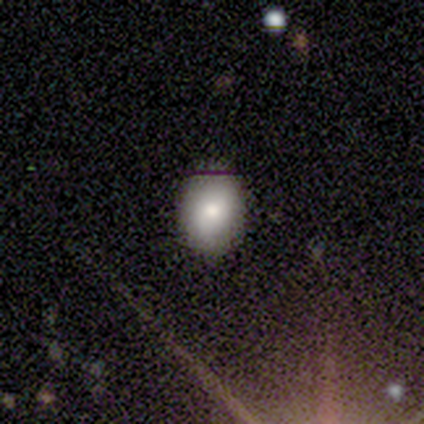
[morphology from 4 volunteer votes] Smooth or featured? smooth (75%)
How rounded? in between (67%)
Merging? none (75%)